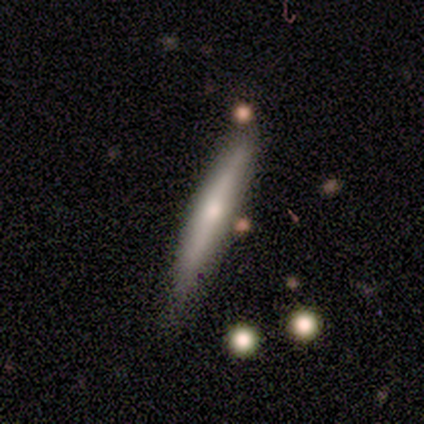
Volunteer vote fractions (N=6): Q: Smooth or featured?
A: smooth (50%); tied with: featured or disk (50%)
Q: How rounded?
A: cigar-shaped (100%)
Q: Merging?
A: none (83%); runner-up: minor disturbance (17%)